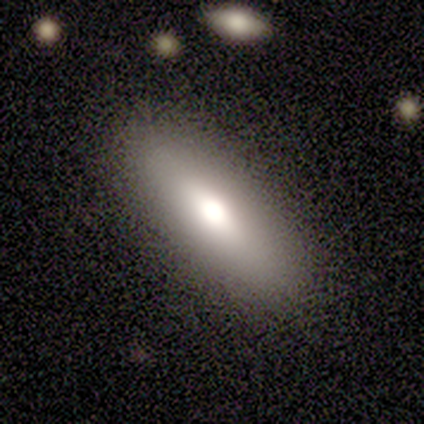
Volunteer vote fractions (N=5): Volunteers were most divided on "smooth or featured": smooth: 60%, featured or disk: 40%, star or artifact: 0%. More confident: merging — none (80%); how rounded — in between (67%).